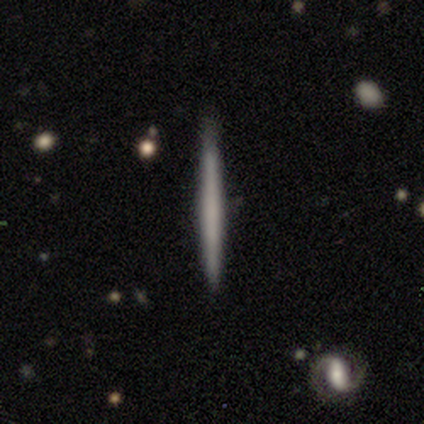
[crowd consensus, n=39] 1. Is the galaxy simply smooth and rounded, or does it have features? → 51% featured or disk, 46% smooth, 3% star or artifact.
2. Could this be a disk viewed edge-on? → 95% yes, 5% no.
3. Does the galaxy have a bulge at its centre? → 95% none, 5% rounded, 0% boxy.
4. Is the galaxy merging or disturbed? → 87% none, 13% minor disturbance, 0% major disturbance, 0% merger.